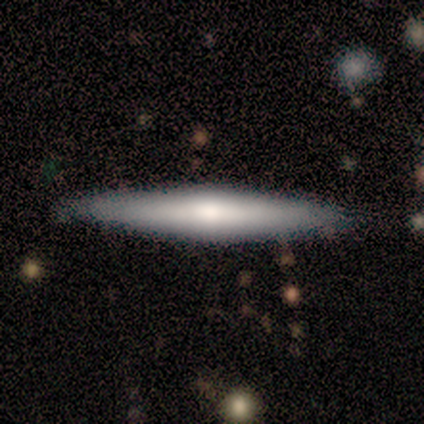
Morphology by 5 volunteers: Smooth or featured? smooth (80%)
How rounded? cigar-shaped (100%)
Merging? none (100%)